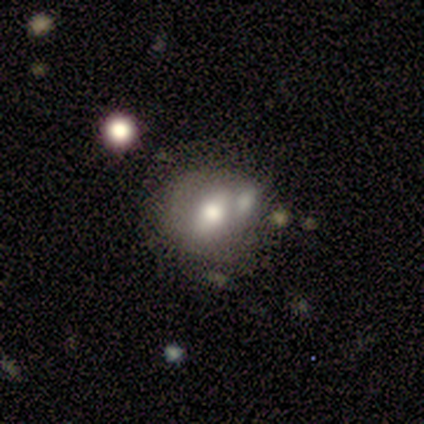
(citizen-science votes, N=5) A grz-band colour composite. It shows a smooth galaxy with no disk features (60%) that is round (100%). Merging: none (50%).